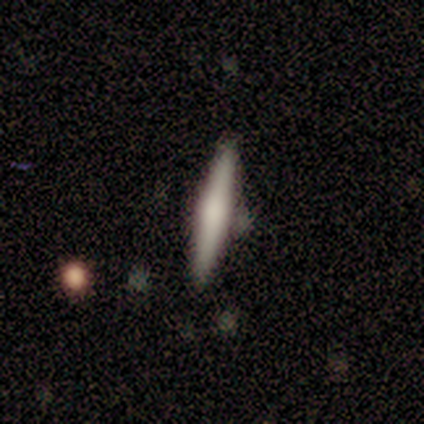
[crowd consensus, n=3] Smooth or featured? featured or disk (67%)
Edge-on disk? yes (100%)
Edge-on bulge? rounded (100%)
Merging? none (67%)